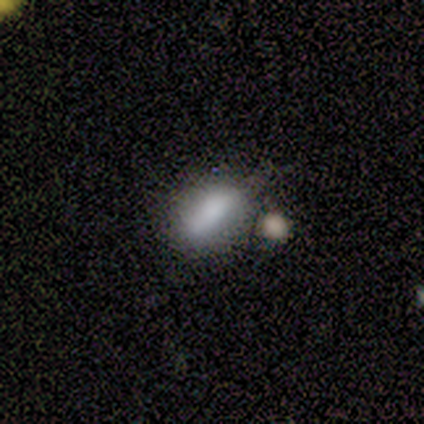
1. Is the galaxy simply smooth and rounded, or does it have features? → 75% smooth, 25% star or artifact, 0% featured or disk.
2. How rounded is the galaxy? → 100% in between, 0% round, 0% cigar-shaped.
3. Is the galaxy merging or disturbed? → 33% none (tied), 33% minor disturbance (tied), 33% merger (tied), 0% major disturbance.